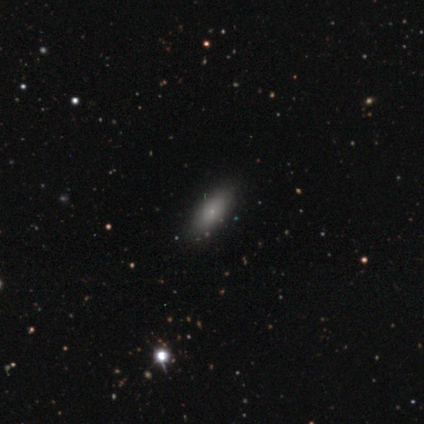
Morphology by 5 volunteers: Smooth or featured? smooth (60%)
How rounded? in between (67%)
Merging? none (67%)